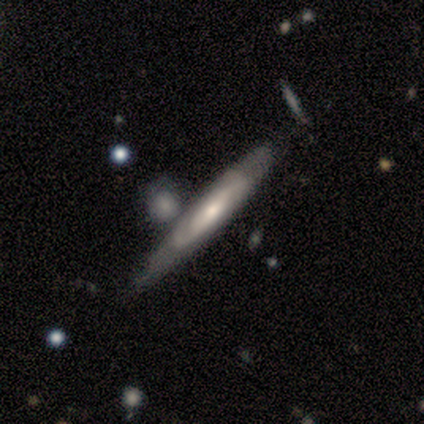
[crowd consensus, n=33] Morphology: type=featured or disk (76%); edge-on=yes (68%); edge-on bulge=rounded (71%); merging=merger (50%).